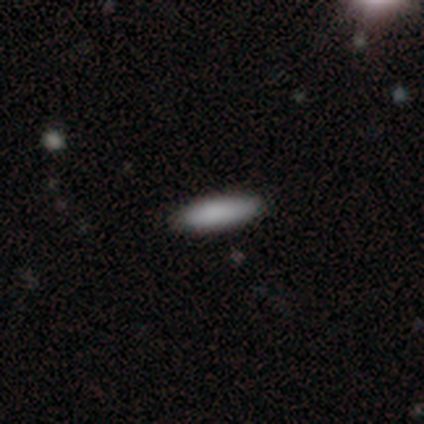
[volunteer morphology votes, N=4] Overall: smooth (100%). How rounded: cigar-shaped (100%). Merging: none (100%).